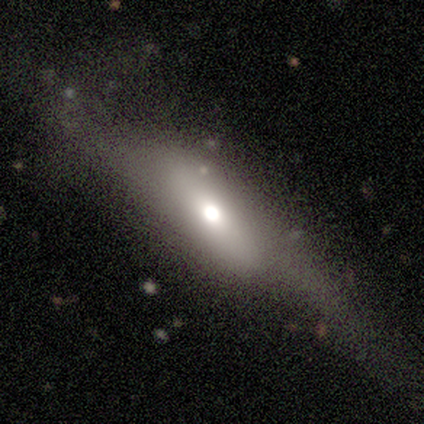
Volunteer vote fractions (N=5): A smooth galaxy with no disk features (60%) that is in between round and cigar-shaped (100%). Merging: none (80%).